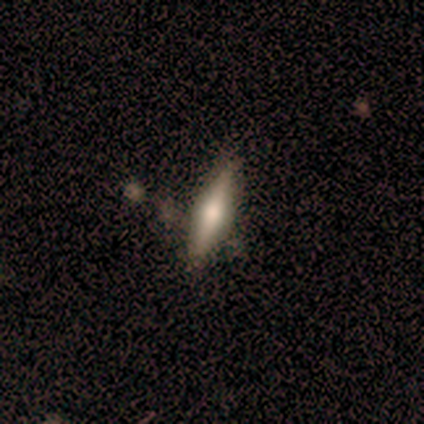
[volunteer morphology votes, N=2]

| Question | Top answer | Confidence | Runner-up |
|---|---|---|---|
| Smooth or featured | smooth | 50% | tied: featured or disk (50%) |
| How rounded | cigar-shaped | 100% | — |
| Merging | none | 100% | — |